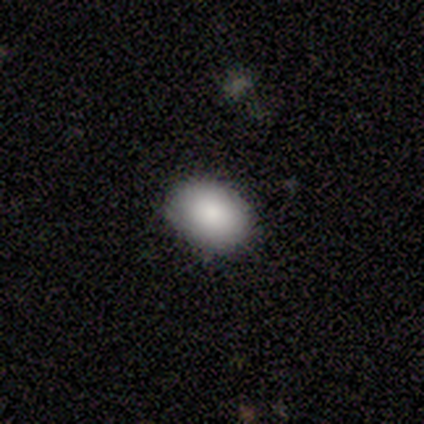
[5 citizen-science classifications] Smooth or featured?
  - smooth: 100% *
  - featured or disk: 0%
  - star or artifact: 0%
How rounded?
  - in between: 80% *
  - round: 20%
  - cigar-shaped: 0%
Merging?
  - none: 80% *
  - minor disturbance: 20%
  - major disturbance: 0%
  - merger: 0%